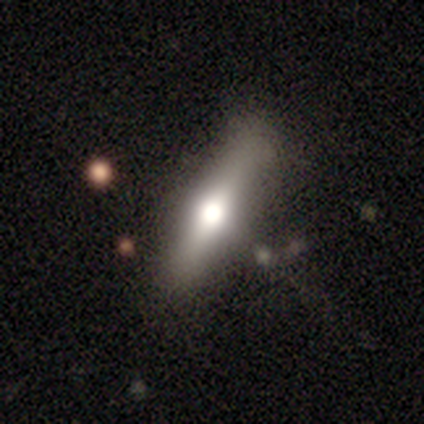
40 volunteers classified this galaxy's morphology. Overall: featured or disk (57%; smooth 35%). Edge-on disk: yes (87%). Edge-on bulge: rounded (100%). Merging: none (76%).